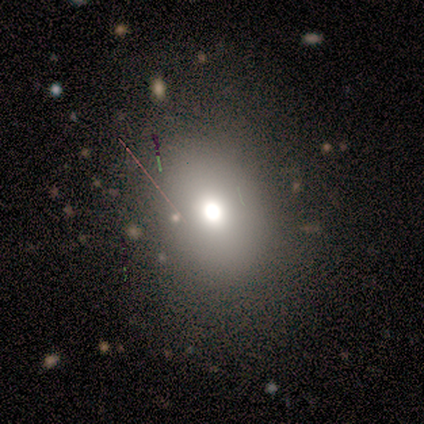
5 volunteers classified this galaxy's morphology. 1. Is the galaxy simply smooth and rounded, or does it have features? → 60% star or artifact, 40% smooth, 0% featured or disk.